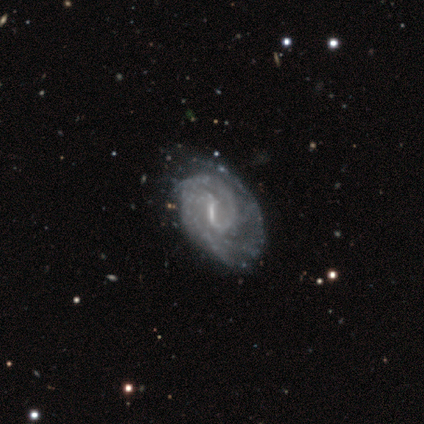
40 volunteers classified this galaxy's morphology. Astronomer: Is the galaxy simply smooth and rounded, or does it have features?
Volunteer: featured or disk — 100%.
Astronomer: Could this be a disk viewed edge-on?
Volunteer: no — 95%.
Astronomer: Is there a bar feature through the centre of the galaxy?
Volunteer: strong — 58% (runner-up: weak, 37%).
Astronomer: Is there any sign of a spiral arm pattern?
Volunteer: yes — 97%.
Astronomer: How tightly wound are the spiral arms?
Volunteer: tight — 62%.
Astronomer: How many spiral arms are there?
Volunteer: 2 — 54%.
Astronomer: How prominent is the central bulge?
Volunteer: none — 42% (runner-up: small, 37%).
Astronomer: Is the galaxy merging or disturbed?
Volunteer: none — 30% (runner-up: minor disturbance, 22%).